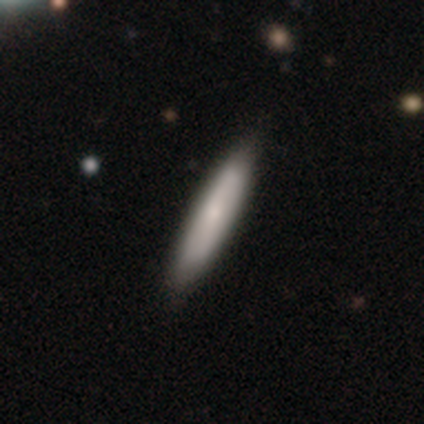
Smooth or featured: smooth — 78% (featured or disk — 18%)
How rounded: cigar-shaped — 92% (in between — 8%)
Merging: none — 90% (minor disturbance — 10%)